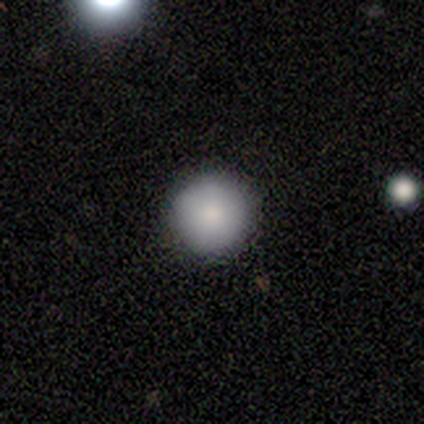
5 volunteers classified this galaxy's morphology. Q: Smooth or featured?
A: smooth (80%); runner-up: star or artifact (20%)
Q: How rounded?
A: round (100%)
Q: Merging?
A: none (100%)